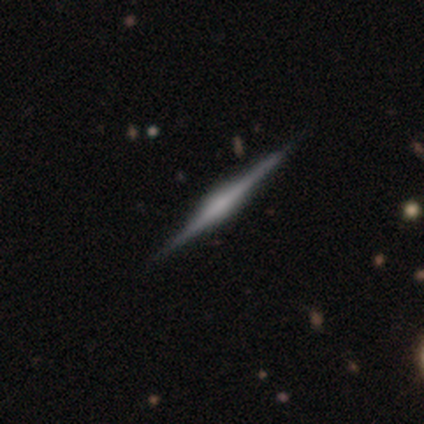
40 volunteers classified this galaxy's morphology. Smooth or featured: featured or disk — 82% (smooth — 12%)
Edge-on disk: yes — 97% (no — 3%)
Edge-on bulge: rounded — 62% (boxy — 28%)
Merging: none — 89% (minor disturbance — 11%)